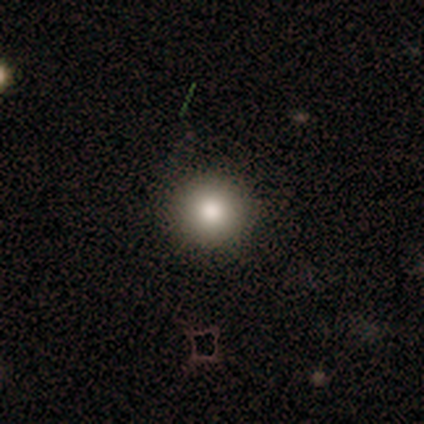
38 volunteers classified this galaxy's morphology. A smooth galaxy with no disk features (79%) that is round (97%). Merging: none (85%).